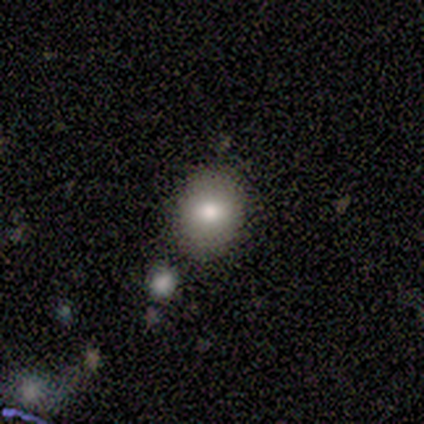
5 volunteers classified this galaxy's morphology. smooth_or_featured: smooth (p=0.80) [alt: featured or disk p=0.20]
how_rounded: in between (p=0.75) [alt: round p=0.25]
merging: none (p=0.80) [alt: minor disturbance p=0.20]